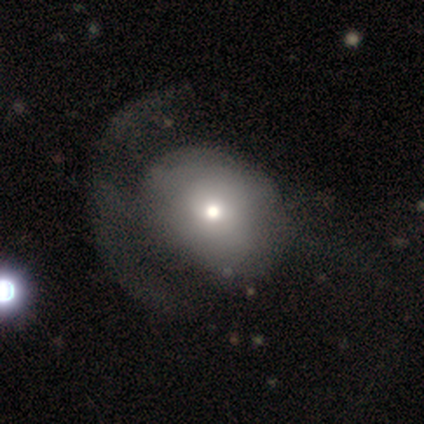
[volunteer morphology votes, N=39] This is likely a smooth galaxy (64%). How rounded: possibly round (56%). Merging: possibly major disturbance (46%).